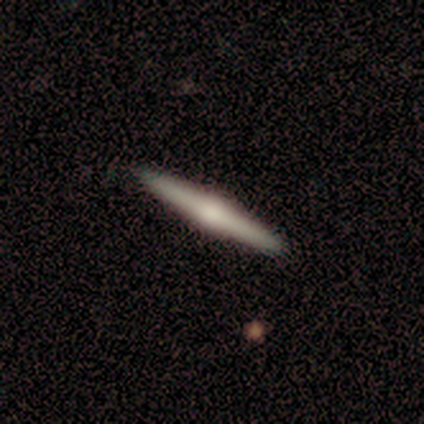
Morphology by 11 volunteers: Smooth or featured? 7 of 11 (64%) said featured or disk. Edge-on disk? 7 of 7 (100%) said yes. Edge-on bulge? 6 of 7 (86%) said rounded. Merging? 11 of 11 (100%) said none.